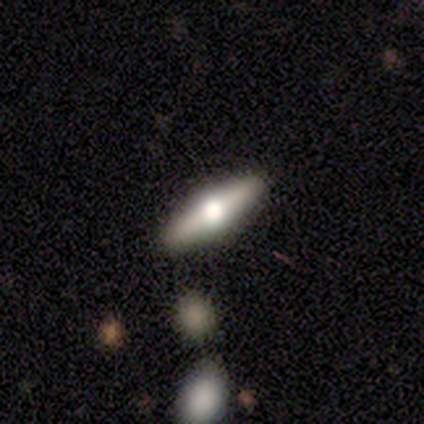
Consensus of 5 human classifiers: Volunteers were most divided on "smooth or featured": featured or disk: 80%, smooth: 20%, star or artifact: 0%. More confident: edge-on disk — yes (100%); edge-on bulge — rounded (100%); merging — none (100%).